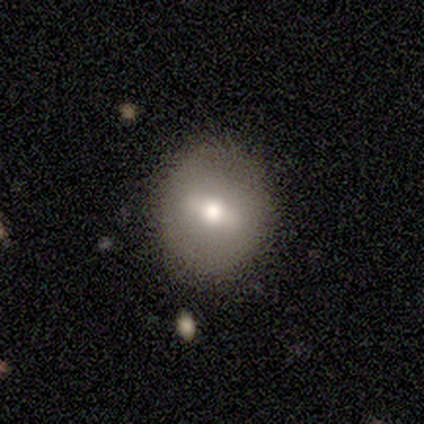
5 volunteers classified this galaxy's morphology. Volunteers were most divided on "how rounded": round: 75%, in between: 25%, cigar-shaped: 0%. More confident: smooth or featured — smooth (80%); merging — none (80%).